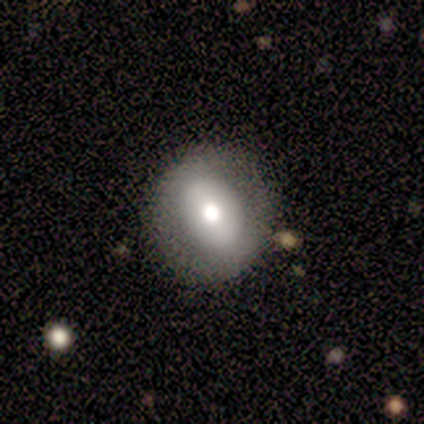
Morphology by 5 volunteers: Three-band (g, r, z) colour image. It shows a smooth galaxy with no disk features (60%) that is round (67%). Merging: none (80%).